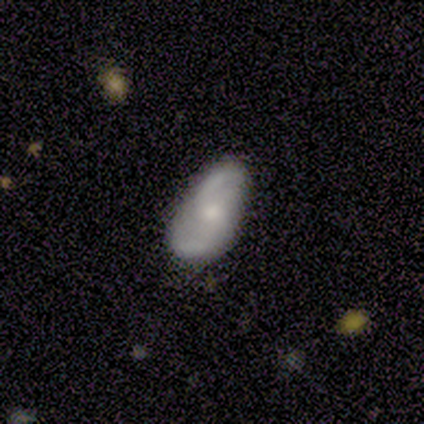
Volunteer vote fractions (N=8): Volunteers were most divided on "bulge size": small: 57%, moderate: 43%, dominant: 0%, large: 0%, none: 0%. More confident: edge-on disk — no (100%); smooth or featured — featured or disk (88%); merging — none (88%); spiral arms — yes (86%); spiral arm count — 2 (83%); bar — no (71%); spiral winding — loose (50%).